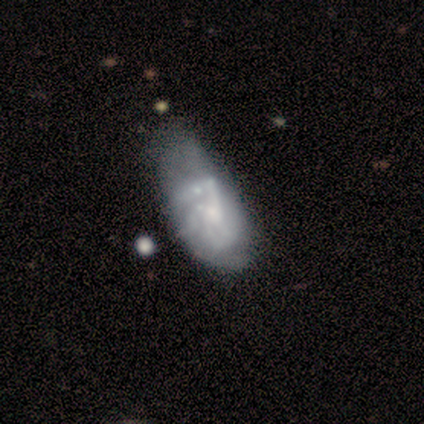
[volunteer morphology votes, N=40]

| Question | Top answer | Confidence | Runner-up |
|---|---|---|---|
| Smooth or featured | featured or disk | 72% | smooth (20%) |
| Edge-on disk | no | 100% | — |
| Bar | no | 72% | weak (17%) |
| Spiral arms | yes | 62% | no (38%) |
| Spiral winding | medium | 50% | loose (28%) |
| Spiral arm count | can't tell | 33% | 3 (22%) |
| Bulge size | small | 55% | moderate (28%) |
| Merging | major disturbance | 43% | minor disturbance (16%) |